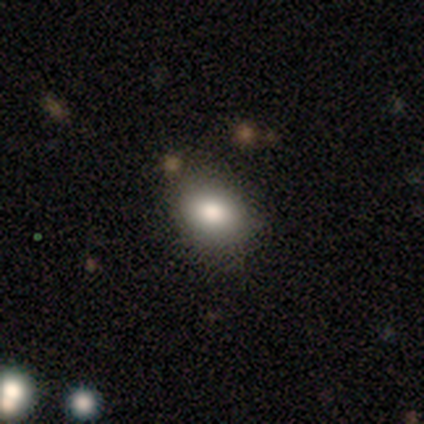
A smooth galaxy with no disk features (60%) that is round (100%). Merging: none (50%).